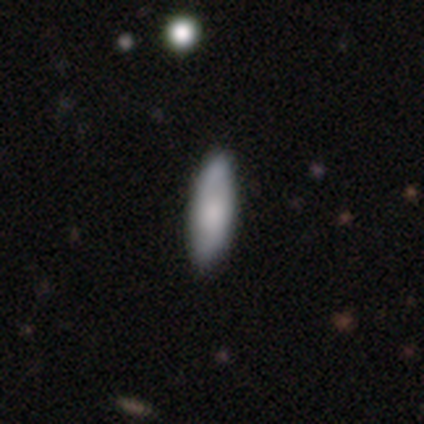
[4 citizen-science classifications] Smooth or featured? smooth (50%)
How rounded? in between (50%, tied with cigar-shaped)
Merging? none (100%)